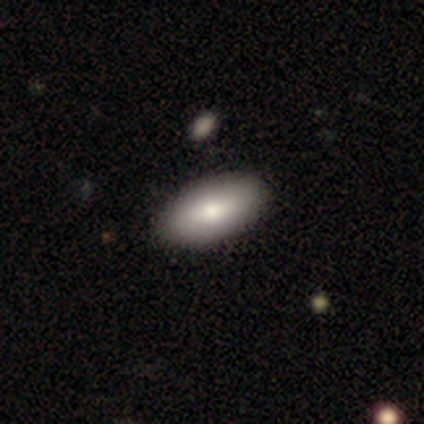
smooth_or_featured: smooth (p=0.82) [alt: featured or disk p=0.15]
how_rounded: in between (p=0.97) [alt: cigar-shaped p=0.03]
merging: none (p=0.77) [alt: minor disturbance p=0.05]